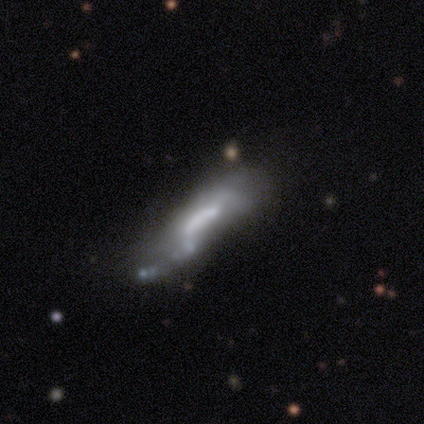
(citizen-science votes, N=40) Smooth or featured? featured or disk (57%)
Edge-on disk? no (74%)
Bar? no (47%)
Spiral arms? no (53%)
Bulge size? none (41%)
Merging? merger (20%)